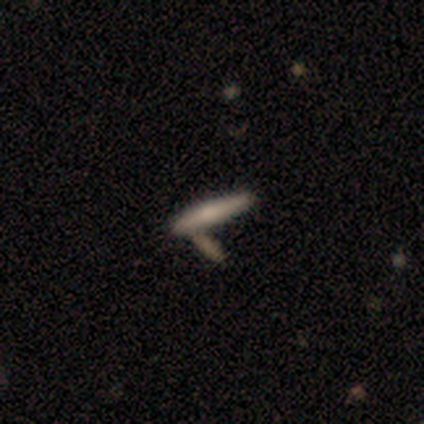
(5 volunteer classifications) Smooth or featured: smooth — 40% (tied with star or artifact — 40%)
How rounded: cigar-shaped — 100%
Merging: none — 100%